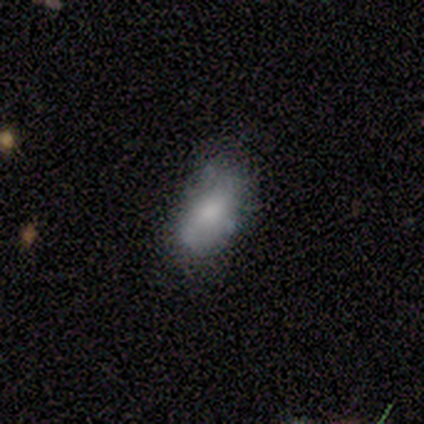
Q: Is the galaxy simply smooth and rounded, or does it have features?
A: smooth — 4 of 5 (80%).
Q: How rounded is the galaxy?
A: in between — 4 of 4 (100%).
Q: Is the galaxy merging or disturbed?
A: none — 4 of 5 (80%).